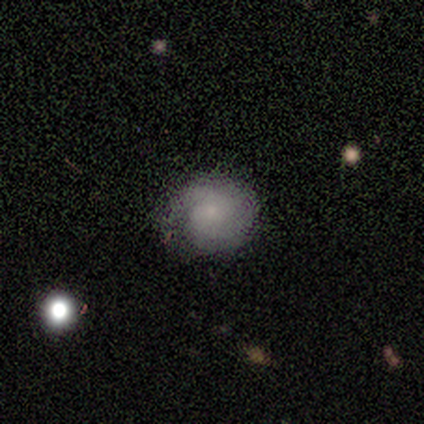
A smooth galaxy with no disk features (67%) that is round (100%).

Vote fractions:
- Smooth or featured? smooth: 67% / featured or disk: 17% / star or artifact: 17%
- How rounded? round: 100% / in between: 0% / cigar-shaped: 0%
- Merging? none: 80% / minor disturbance: 20% / major disturbance: 0% / merger: 0%